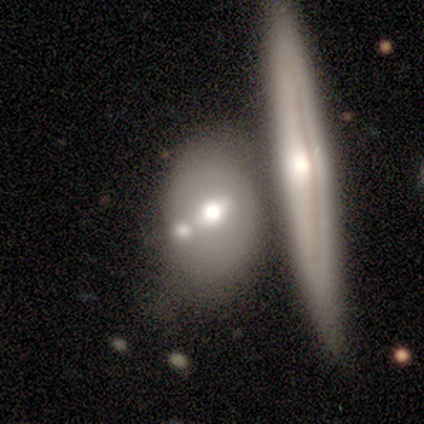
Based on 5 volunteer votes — A smooth galaxy with no disk features (60%) that is in between round and cigar-shaped (100%). Merging: merger (40%).